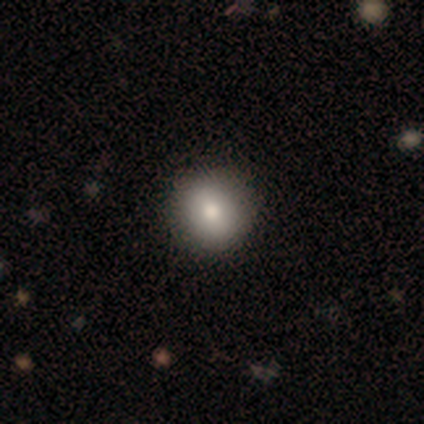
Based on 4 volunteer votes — smooth 75%, star or artifact 25%, featured or disk 0%. Down the decision tree: how rounded — round (67%); merging — none (100%).